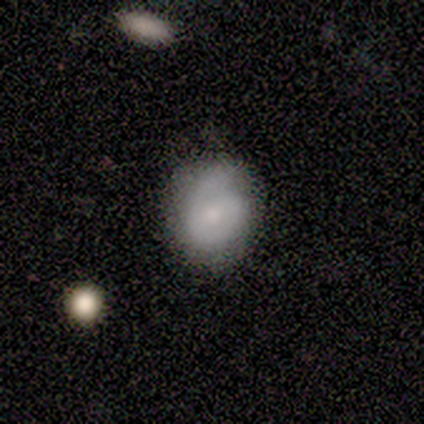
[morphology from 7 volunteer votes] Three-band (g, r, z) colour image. It shows a smooth galaxy with no disk features (100%) that is round (71%). Merging: none (71%).